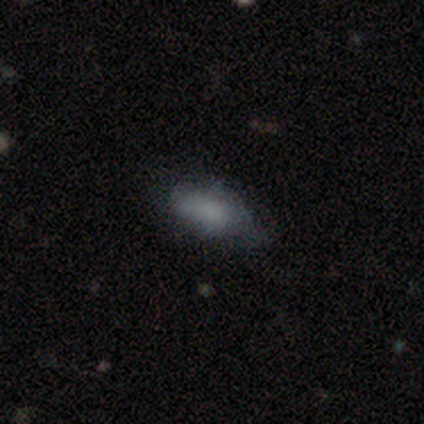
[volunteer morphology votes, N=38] A smooth galaxy with no disk features (68%) that is in between round and cigar-shaped (81%). Merging: none (63%).